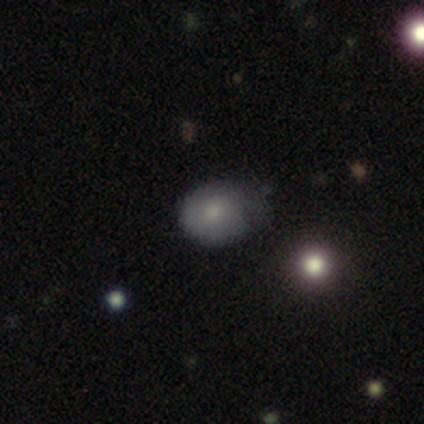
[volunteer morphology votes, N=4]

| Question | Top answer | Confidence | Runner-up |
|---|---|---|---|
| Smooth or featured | smooth | 75% | featured or disk (25%) |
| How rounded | in between | 67% | round (33%) |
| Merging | none | 50% | minor disturbance (25%) |